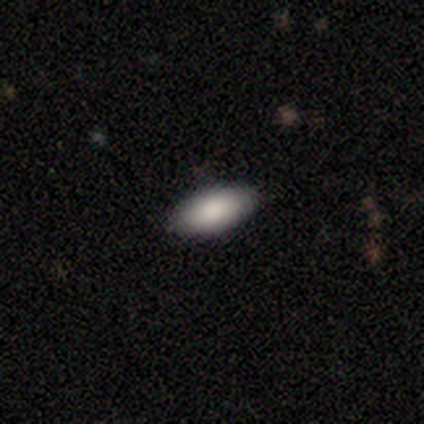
A smooth galaxy with no disk features (75%) that is in between round and cigar-shaped (100%).

Vote fractions:
- Smooth or featured? smooth: 75% / featured or disk: 25% / star or artifact: 0%
- How rounded? in between: 100% / round: 0% / cigar-shaped: 0%
- Merging? none: 100% / minor disturbance: 0% / major disturbance: 0% / merger: 0%